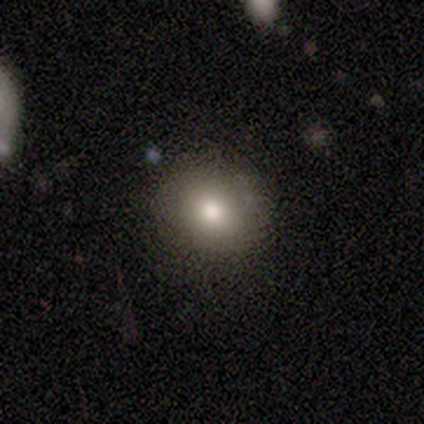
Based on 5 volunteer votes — Smooth or featured: smooth — 80% (featured or disk — 20%)
How rounded: round — 100%
Merging: none — 100%